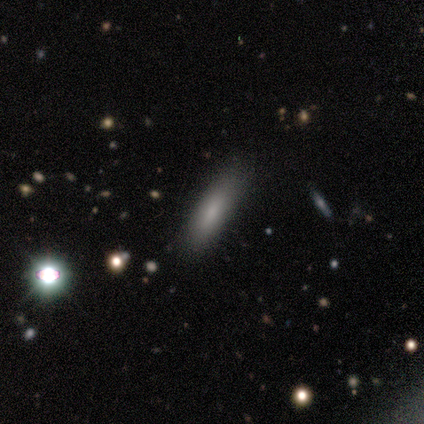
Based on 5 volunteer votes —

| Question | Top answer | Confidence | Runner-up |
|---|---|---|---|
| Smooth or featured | smooth | 80% | star or artifact (20%) |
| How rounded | in between | 50% | tied: cigar-shaped (50%) |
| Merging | none | 75% | minor disturbance (25%) |